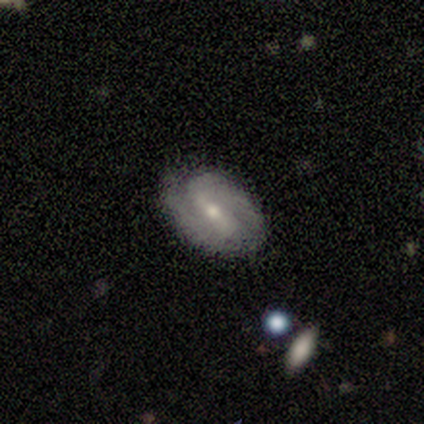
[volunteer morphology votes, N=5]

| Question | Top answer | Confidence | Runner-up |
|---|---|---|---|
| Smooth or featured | featured or disk | 80% | smooth (20%) |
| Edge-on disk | no | 100% | — |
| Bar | strong | 50% | tied: weak (50%) |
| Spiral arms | yes | 100% | — |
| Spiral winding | medium | 50% | tight (25%) |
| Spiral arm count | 2 | 100% | — |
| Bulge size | moderate | 50% | tied: small (50%) |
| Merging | none | 100% | — |